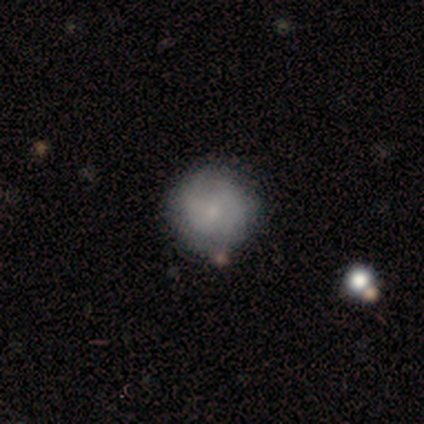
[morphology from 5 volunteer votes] This appears to be a smooth galaxy with no disk features (60%) that is round (100%). Merging: none (80%).